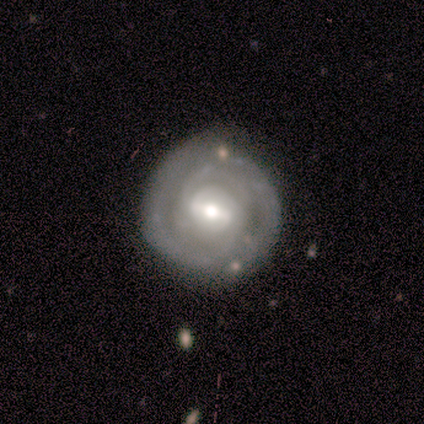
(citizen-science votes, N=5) A featured or disk galaxy (60%) with a strong bar (67%), tight (67%) spiral arms (100%) and a moderate central bulge (67%).

Vote fractions:
- Smooth or featured? featured or disk: 60% / smooth: 40% / star or artifact: 0%
- Edge-on disk? no: 100% / yes: 0%
- Bar? strong: 67% / weak: 33% / no: 0%
- Spiral arms? yes: 100% / no: 0%
- Spiral winding? tight: 67% / medium: 33% / loose: 0%
- Spiral arm count? can't tell: 67% / 2: 33% / 1: 0% / 3: 0% / 4: 0% / more than 4: 0%
- Bulge size? moderate: 67% / small: 33% / dominant: 0% / large: 0% / none: 0%
- Merging? minor disturbance: 60% / none: 40% / major disturbance: 0% / merger: 0%